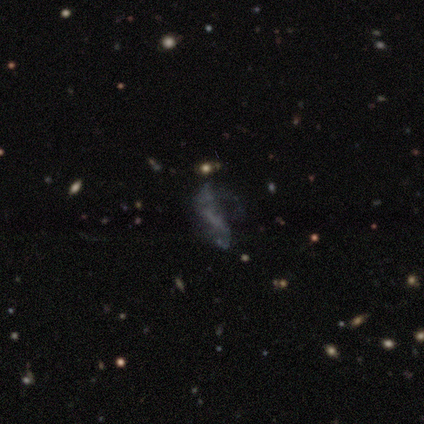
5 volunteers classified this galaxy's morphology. Smooth or featured?
  - featured or disk: 60% *
  - smooth: 20%
  - star or artifact: 20%
Edge-on disk?
  - no: 100% *
  - yes: 0%
Bar?
  - strong: 67% *
  - weak: 33%
  - no: 0%
Spiral arms?
  - no: 67% *
  - yes: 33%
Bulge size?
  - none: 67% *
  - large: 33%
  - dominant: 0%
  - moderate: 0%
  - small: 0%
Merging?
  - none: 50% * (tied)
  - major disturbance: 50% * (tied)
  - minor disturbance: 0%
  - merger: 0%